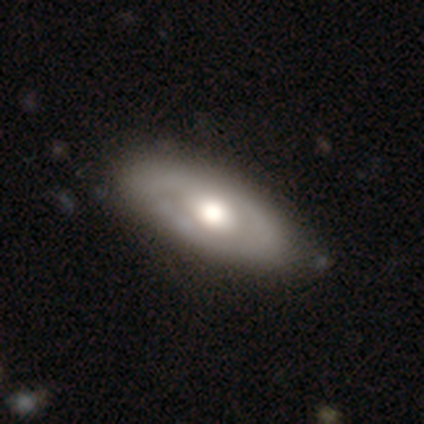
A featured or disk galaxy (54%) with no bar (82%), no spiral arms (82%) and a large central bulge (47%, tied with moderate).

Vote fractions:
- Smooth or featured? featured or disk: 54% / smooth: 46% / star or artifact: 0%
- Edge-on disk? no: 81% / yes: 19%
- Bar? no: 82% / weak: 18% / strong: 0%
- Spiral arms? no: 82% / yes: 18%
- Bulge size? large: 47% (tied) / moderate: 47% (tied) / small: 6% / dominant: 0% / none: 0%
- Merging? none: 51% / minor disturbance: 13% / major disturbance: 3% / merger: 0%